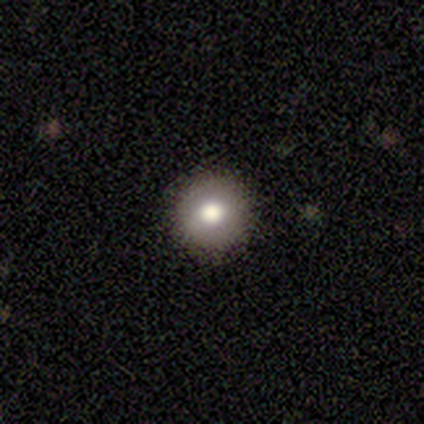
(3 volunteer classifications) Smooth or featured?
  - smooth: 100% *
  - featured or disk: 0%
  - star or artifact: 0%
How rounded?
  - round: 100% *
  - in between: 0%
  - cigar-shaped: 0%
Merging?
  - none: 100% *
  - minor disturbance: 0%
  - major disturbance: 0%
  - merger: 0%